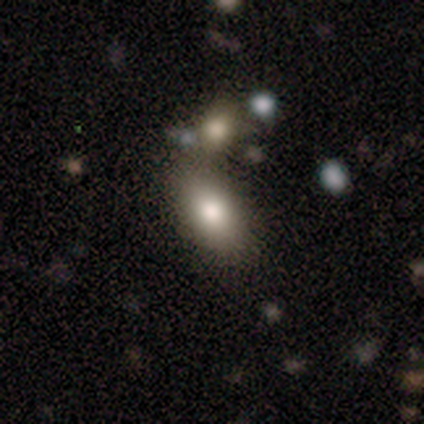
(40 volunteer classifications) smooth-or-featured: smooth: 82% | featured or disk: 10% | star or artifact: 8%
  how-rounded: in between: 88% | cigar-shaped: 9% | round: 3%
  merging: none: 43% | merger: 27% | minor disturbance: 8% | major disturbance: 3%